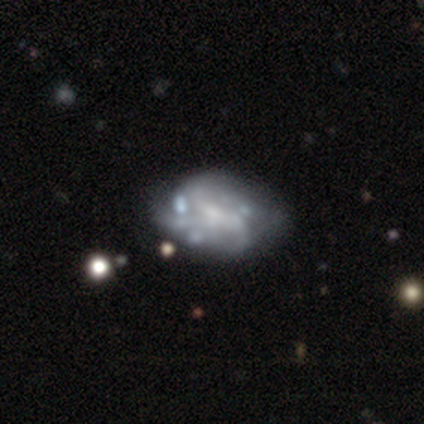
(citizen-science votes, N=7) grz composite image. It shows a featured or disk galaxy (100%) with no bar (71%), no spiral arms (71%) and a small central bulge (57%). Merging: none (43%).